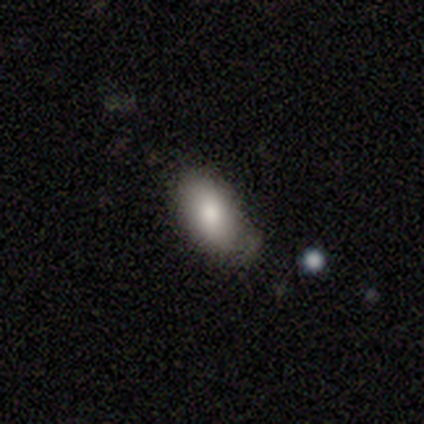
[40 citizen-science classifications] smooth-or-featured: smooth: 85% | featured or disk: 10% | star or artifact: 5%
  how-rounded: in between: 91% | cigar-shaped: 6% | round: 3%
  merging: none: 61% | minor disturbance: 37% | major disturbance: 3% | merger: 0%